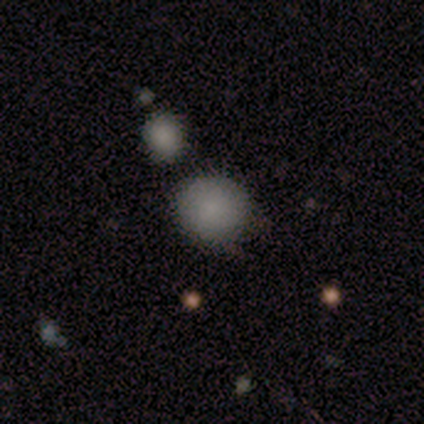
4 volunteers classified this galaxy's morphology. This appears to be a smooth galaxy with no disk features (75%) that is round (100%). Merging: minor disturbance (75%).